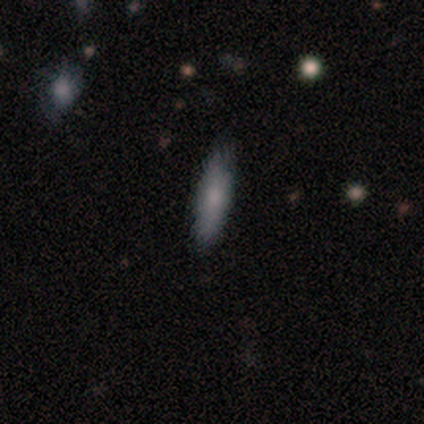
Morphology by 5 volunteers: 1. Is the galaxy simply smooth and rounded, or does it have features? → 80% smooth, 20% featured or disk, 0% star or artifact.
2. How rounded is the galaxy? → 50% in between (tied), 50% cigar-shaped (tied), 0% round.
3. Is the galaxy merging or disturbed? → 100% none, 0% minor disturbance, 0% major disturbance, 0% merger.